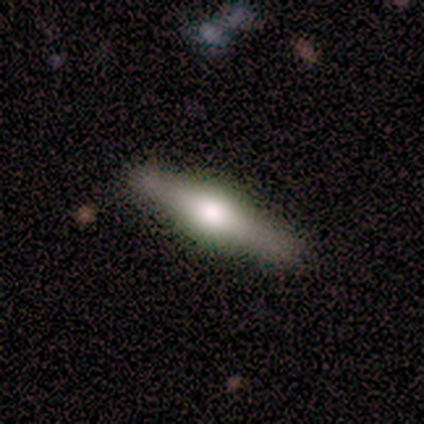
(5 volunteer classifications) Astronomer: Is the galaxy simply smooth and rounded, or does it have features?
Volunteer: featured or disk — 80%.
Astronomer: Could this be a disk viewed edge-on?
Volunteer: yes — 100%.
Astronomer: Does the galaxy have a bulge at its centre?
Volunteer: rounded — 100%.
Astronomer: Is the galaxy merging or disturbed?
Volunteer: none — 60%.